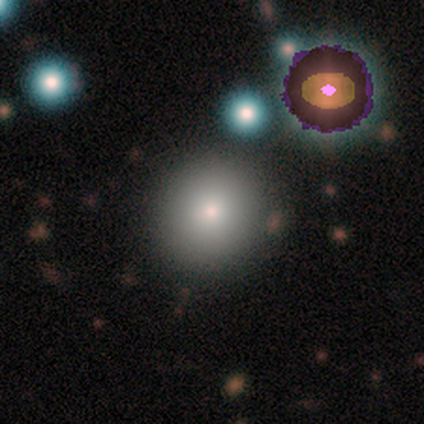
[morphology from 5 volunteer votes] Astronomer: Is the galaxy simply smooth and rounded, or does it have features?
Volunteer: smooth — 100%.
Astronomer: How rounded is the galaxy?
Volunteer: round — 100%.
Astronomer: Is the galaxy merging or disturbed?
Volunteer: none — 60%.